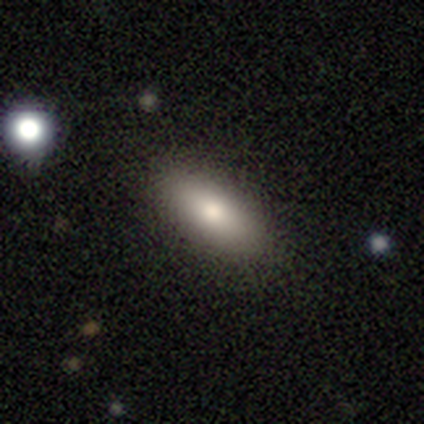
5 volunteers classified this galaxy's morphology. Smooth or featured? 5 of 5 (100%) said smooth. How rounded? 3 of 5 (60%) said cigar-shaped. Merging? 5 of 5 (100%) said none.